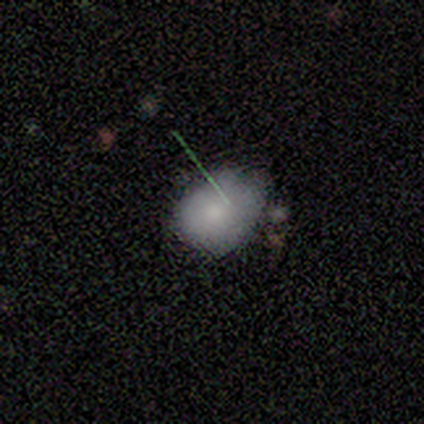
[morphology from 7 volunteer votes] Smooth or featured?
  - smooth: 57% *
  - featured or disk: 29%
  - star or artifact: 14%
How rounded?
  - in between: 75% *
  - round: 25%
  - cigar-shaped: 0%
Merging?
  - minor disturbance: 83% *
  - none: 17%
  - major disturbance: 0%
  - merger: 0%